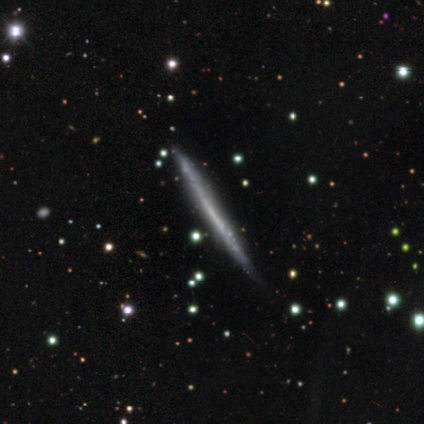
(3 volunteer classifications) Volunteers were most divided on "edge-on bulge" (2-way tie): boxy: 50%, none: 50%, rounded: 0%; "merging" (2-way tie): none: 50%, major disturbance: 50%, minor disturbance: 0%, merger: 0%. More confident: edge-on disk — yes (100%); smooth or featured — featured or disk (67%).